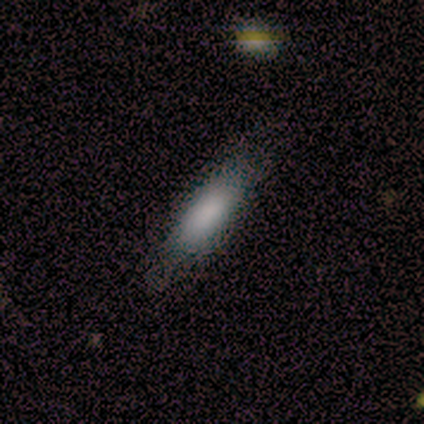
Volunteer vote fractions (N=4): A smooth galaxy with no disk features (100%) that is in between round and cigar-shaped (50%, tied with cigar-shaped). Merging: none (75%).